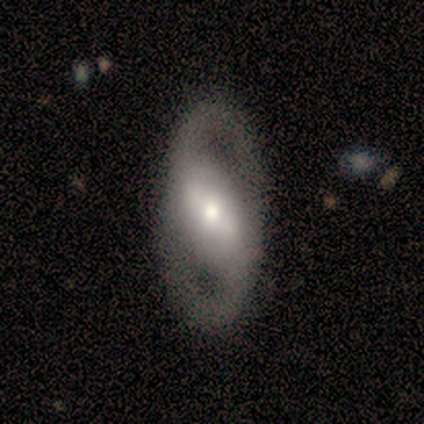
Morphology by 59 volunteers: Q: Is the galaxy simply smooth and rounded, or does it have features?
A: featured or disk — 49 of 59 (83%).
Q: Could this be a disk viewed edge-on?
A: no — 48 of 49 (98%).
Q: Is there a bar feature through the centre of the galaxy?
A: strong — 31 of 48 (65%).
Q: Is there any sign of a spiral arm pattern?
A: yes — 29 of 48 (60%).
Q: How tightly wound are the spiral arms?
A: medium — 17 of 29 (59%).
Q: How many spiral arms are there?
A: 2 — 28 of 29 (97%).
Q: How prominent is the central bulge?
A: moderate — 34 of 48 (71%).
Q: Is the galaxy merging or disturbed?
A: none — 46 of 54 (85%).